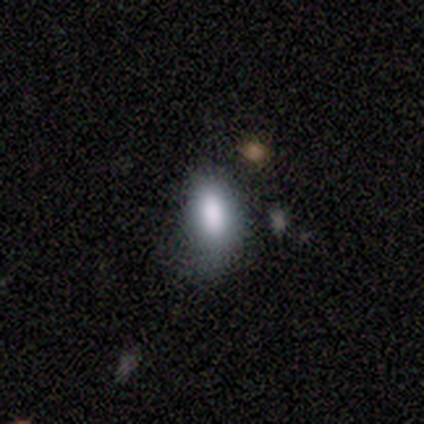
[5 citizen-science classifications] Smooth or featured? 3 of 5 (60%) said smooth. How rounded? 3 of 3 (100%) said in between. Merging? 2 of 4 (50%, tied with minor disturbance) said none.